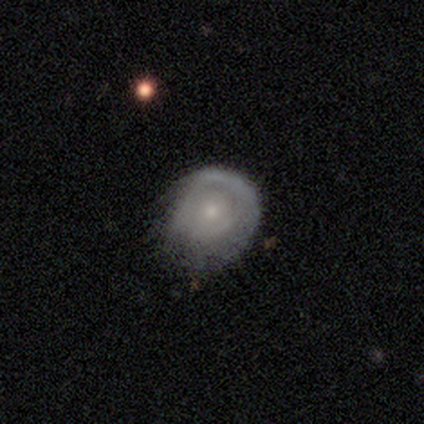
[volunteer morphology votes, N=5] A featured or disk galaxy (80%) with no bar (100%), no spiral arms (100%) and a moderate central bulge (50%, tied with small). Merging: minor disturbance (60%).